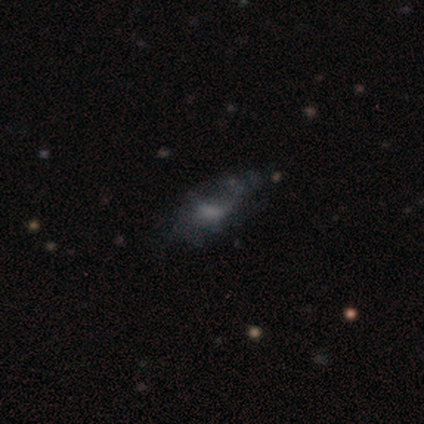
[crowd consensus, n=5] Smooth or featured? featured or disk (60%)
Edge-on disk? no (67%)
Bar? strong (50%, tied with weak)
Spiral arms? yes (100%)
Spiral winding? loose (100%)
Spiral arm count? 2 (50%, tied with 3)
Bulge size? moderate (50%, tied with none)
Merging? none (50%)